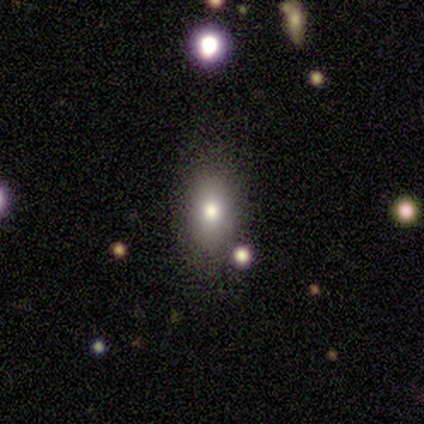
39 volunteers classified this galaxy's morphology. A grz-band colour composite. It shows a smooth galaxy with no disk features (69%) that is in between round and cigar-shaped (89%). Merging: none (83%).